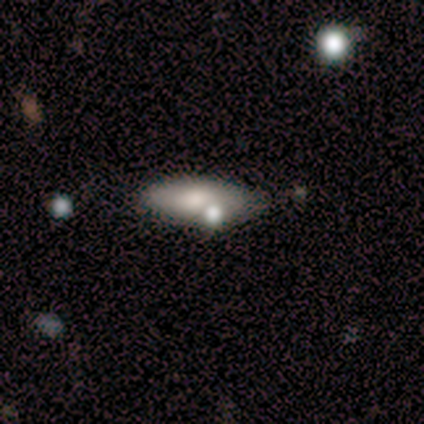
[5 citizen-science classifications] smooth 100%, featured or disk 0%, star or artifact 0%. Down the decision tree: how rounded — in between (80%); merging — none (80%).